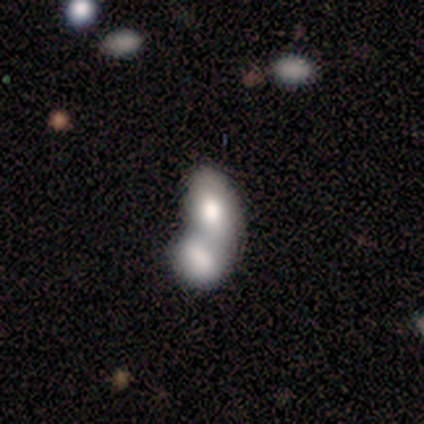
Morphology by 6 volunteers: Overall: smooth (67%). How rounded: in between (75%). Merging: merger (100%).